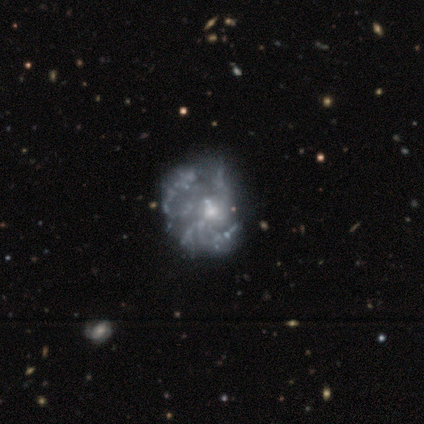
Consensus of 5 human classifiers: featured or disk 100%, smooth 0%, star or artifact 0%. Down the decision tree: edge-on disk — no (80%); bar — no (100%); spiral arms — no (100%); bulge size — small (75%); merging — major disturbance (60%).